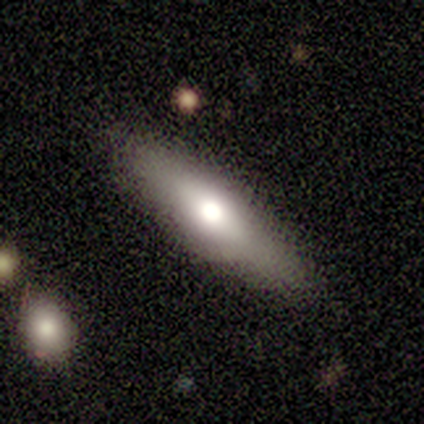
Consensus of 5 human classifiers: smooth 60%, featured or disk 40%, star or artifact 0%. Down the decision tree: how rounded — in between (100%); merging — none (80%).